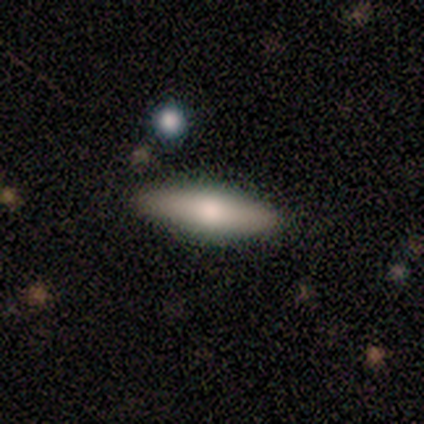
A smooth galaxy with no disk features (65%) that is in between round and cigar-shaped (75%).

Vote fractions:
- Smooth or featured? smooth: 65% / featured or disk: 35% / star or artifact: 0%
- How rounded? in between: 75% / cigar-shaped: 25% / round: 0%
- Merging? none: 88% / minor disturbance: 6% / merger: 4% / major disturbance: 2%